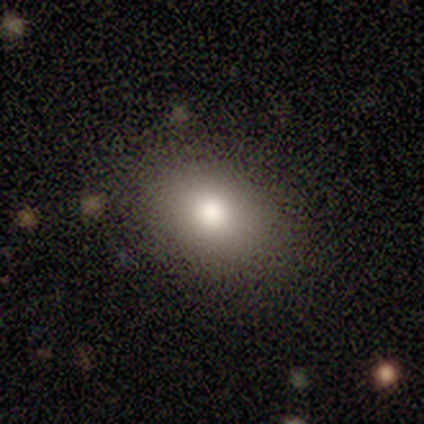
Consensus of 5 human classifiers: A smooth galaxy with no disk features (80%) that is in between round and cigar-shaped (100%).

Vote fractions:
- Smooth or featured? smooth: 80% / star or artifact: 20% / featured or disk: 0%
- How rounded? in between: 100% / round: 0% / cigar-shaped: 0%
- Merging? none: 75% / minor disturbance: 25% / major disturbance: 0% / merger: 0%